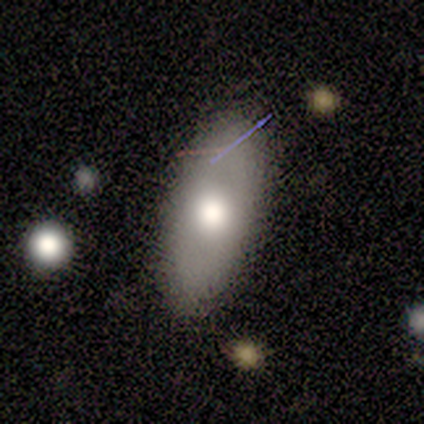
Morphology: type=smooth (71%); roundness=in between (85%); merging=none (86%).